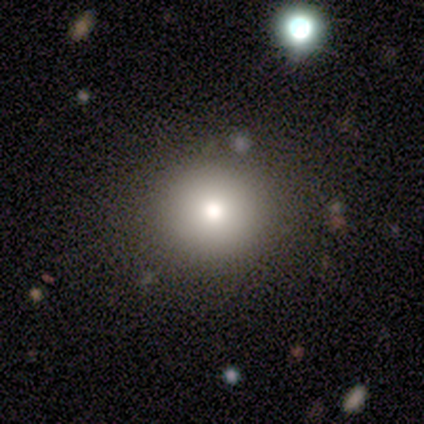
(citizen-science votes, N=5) Volunteers were most divided on "how rounded" (2-way tie): round: 50%, in between: 50%, cigar-shaped: 0%. More confident: merging — none (100%); smooth or featured — smooth (80%).